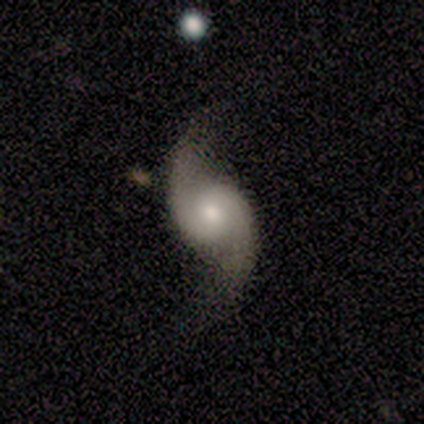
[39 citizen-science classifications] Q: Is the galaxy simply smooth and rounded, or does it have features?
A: featured or disk — 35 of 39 (90%).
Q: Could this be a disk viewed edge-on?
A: no — 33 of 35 (94%).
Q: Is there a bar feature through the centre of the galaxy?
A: no — 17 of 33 (52%).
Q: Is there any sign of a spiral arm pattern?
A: yes — 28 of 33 (85%).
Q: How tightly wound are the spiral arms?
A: loose — 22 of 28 (79%).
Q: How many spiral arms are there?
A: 2 — 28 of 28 (100%).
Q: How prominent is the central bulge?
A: moderate — 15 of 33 (45%).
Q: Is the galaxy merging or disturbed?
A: none — 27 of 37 (73%).